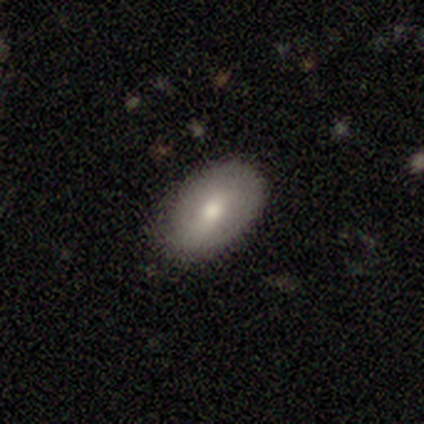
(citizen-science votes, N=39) Morphology: type=smooth (59%); roundness=in between (100%); merging=none (84%).